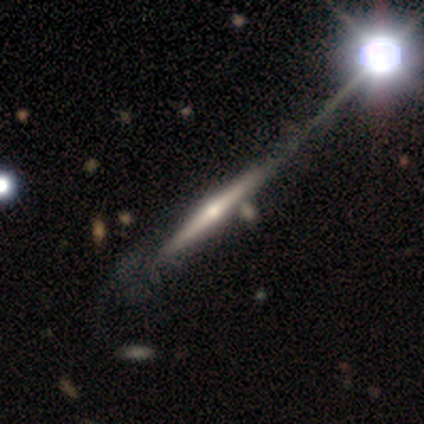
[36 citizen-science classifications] smooth-or-featured: featured or disk: 78% | smooth: 17% | star or artifact: 6%
  disk-edge-on: yes: 100% | no: 0%
    edge-on-bulge: rounded: 93% | none: 7% | boxy: 0%
  merging: none: 41% | major disturbance: 12% | merger: 12% | minor disturbance: 9%